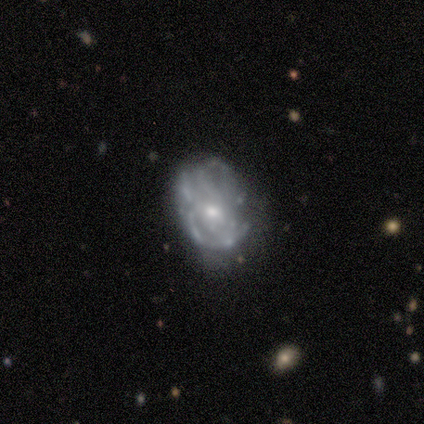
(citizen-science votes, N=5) Smooth or featured? featured or disk (80%)
Edge-on disk? no (100%)
Bar? no (75%)
Spiral arms? yes (75%)
Spiral winding? tight (100%)
Spiral arm count? can't tell (100%)
Bulge size? moderate (50%, tied with small)
Merging? none (40%, tied with major disturbance)